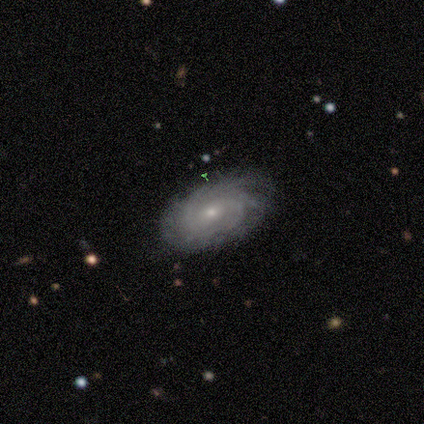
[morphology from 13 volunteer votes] smooth-or-featured: featured or disk: 77% | smooth: 23% | star or artifact: 0%
  disk-edge-on: no: 90% | yes: 10%
    bar: no: 67% | weak: 33% | strong: 0%
    has-spiral-arms: yes: 100% | no: 0%
      spiral-winding: tight: 78% | medium: 11% | loose: 11%
      spiral-arm-count: can't tell: 78% | 3: 11% | more than 4: 11% | 1: 0% | 2: 0% | 4: 0%
    bulge-size: small: 78% | moderate: 22% | dominant: 0% | large: 0% | none: 0%
  merging: none: 85% | minor disturbance: 15% | major disturbance: 0% | merger: 0%